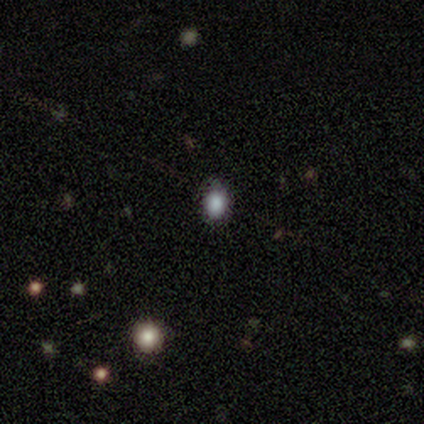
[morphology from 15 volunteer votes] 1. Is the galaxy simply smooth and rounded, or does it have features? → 80% smooth, 20% star or artifact, 0% featured or disk.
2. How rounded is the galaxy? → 67% in between, 33% round, 0% cigar-shaped.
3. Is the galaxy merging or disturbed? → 50% none, 42% minor disturbance, 8% major disturbance, 0% merger.